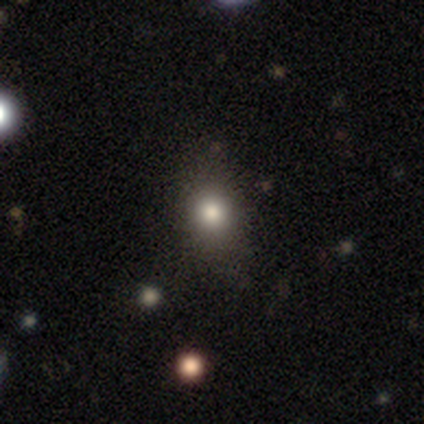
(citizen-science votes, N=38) Smooth or featured?
  - smooth: 74% *
  - featured or disk: 13%
  - star or artifact: 13%
How rounded?
  - round: 50% *
  - in between: 46%
  - cigar-shaped: 4%
Merging?
  - none: 82% *
  - minor disturbance: 15%
  - major disturbance: 3%
  - merger: 0%